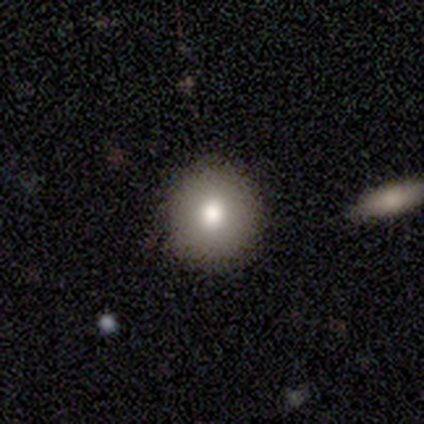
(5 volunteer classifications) Morphology: type=smooth (100%); roundness=round (100%); merging=none (80%).